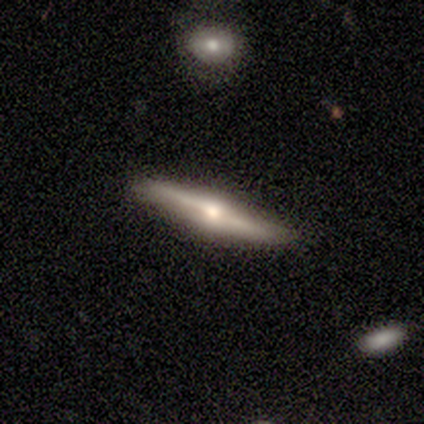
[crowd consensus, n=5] Volunteers were most divided on "smooth or featured": featured or disk: 80%, smooth: 20%, star or artifact: 0%. More confident: edge-on disk — yes (100%); edge-on bulge — rounded (100%); merging — none (80%).